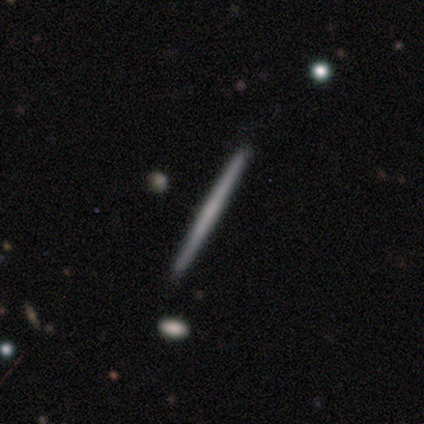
Smooth or featured: featured or disk — 60% (smooth — 37%)
Edge-on disk: yes — 95% (no — 5%)
Edge-on bulge: none — 95% (boxy — 5%)
Merging: none — 88% (minor disturbance — 9%)